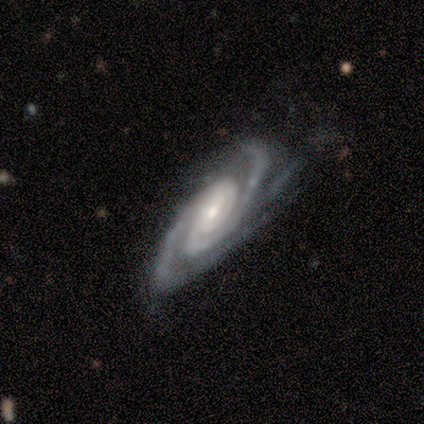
Morphology: type=featured or disk (100%); edge-on=no (100%); bar=no (60%); spiral arms=yes (100%); winding=tight (80%); arm count=3 (60%); bulge=small (80%); merging=none (60%).